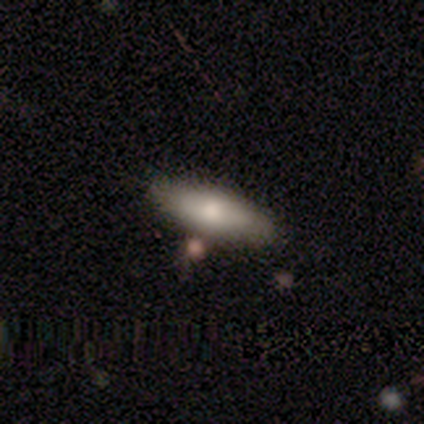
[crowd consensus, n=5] smooth-or-featured: smooth: 60% | featured or disk: 20% | star or artifact: 20%
  how-rounded: in between: 100% | round: 0% | cigar-shaped: 0%
  merging: none: 50% | minor disturbance: 25% | merger: 25% | major disturbance: 0%